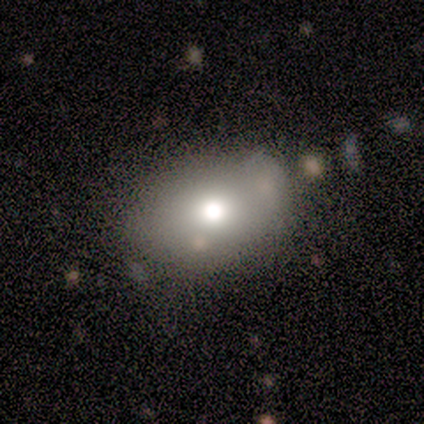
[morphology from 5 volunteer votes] Smooth or featured? smooth (60%)
How rounded? in between (100%)
Merging? none (100%)